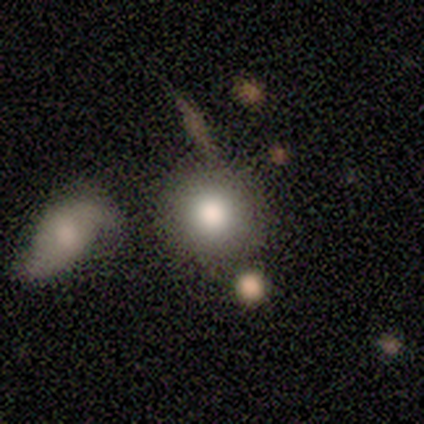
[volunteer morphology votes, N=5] This appears to be a smooth galaxy with no disk features (100%) that is round (80%). Merging: none (40%, tied with merger).